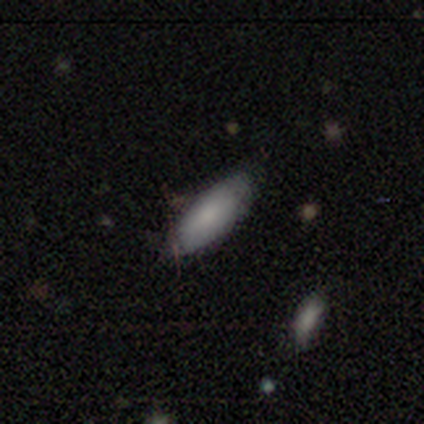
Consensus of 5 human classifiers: This appears to be a smooth galaxy with no disk features (80%) that is in between round and cigar-shaped (75%). Merging: none (75%).